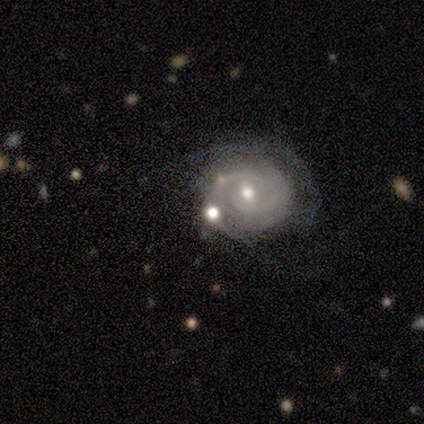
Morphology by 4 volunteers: type=star or artifact (50%).